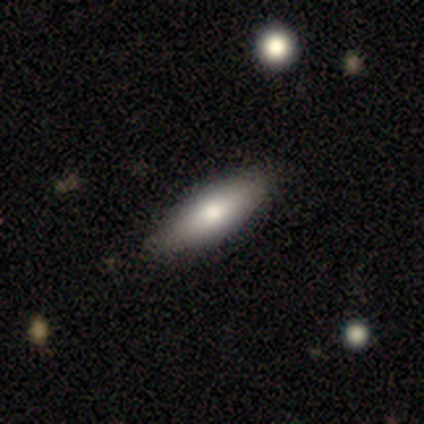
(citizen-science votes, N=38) This is likely a smooth galaxy (66%). How rounded: likely in between (68%). Merging: clearly none (91%).